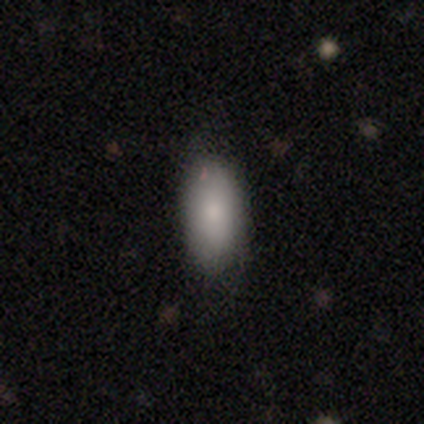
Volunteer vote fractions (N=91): Morphology: type=smooth (85%); roundness=in between (92%); merging=none (79%).